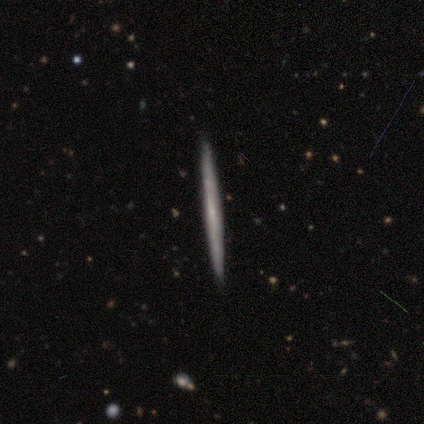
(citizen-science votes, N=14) Smooth or featured? 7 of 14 (50%) said featured or disk. Edge-on disk? 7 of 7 (100%) said yes. Edge-on bulge? 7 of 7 (100%) said none. Merging? 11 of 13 (85%) said none.